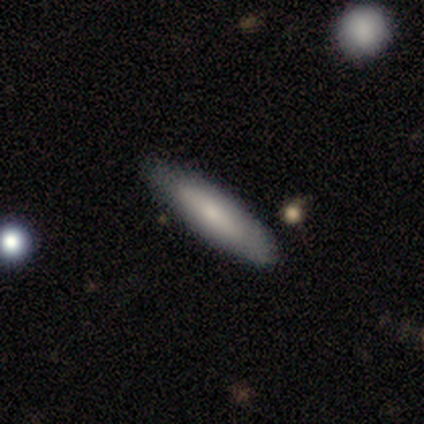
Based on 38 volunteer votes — smooth 71%, featured or disk 18%, star or artifact 11%. Down the decision tree: how rounded — cigar-shaped (85%); merging — none (85%).